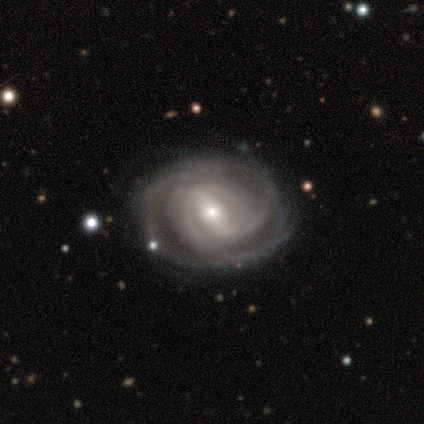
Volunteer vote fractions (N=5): A featured or disk galaxy (80%) with a strong bar (67%), 2 (67%) tight (100%) spiral arms (100%) and a small central bulge (67%). Merging: none (50%).